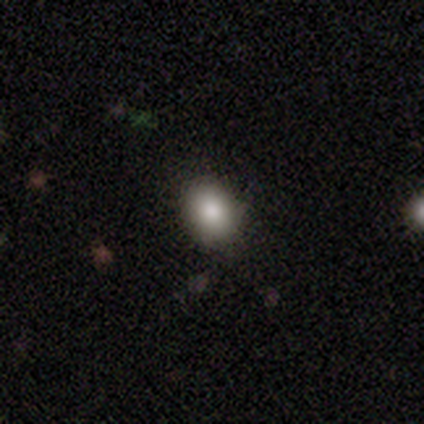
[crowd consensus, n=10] This is clearly a smooth galaxy (90%). How rounded: clearly in between (100%). Merging: clearly none (100%).